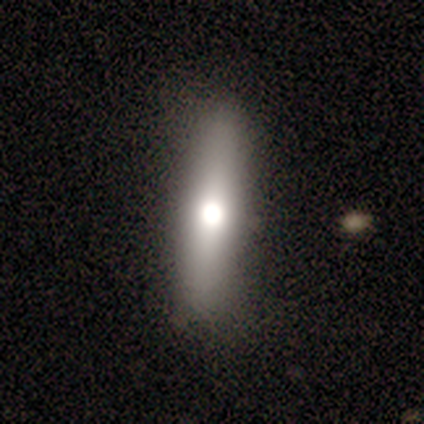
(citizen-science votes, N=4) A smooth galaxy with no disk features (50%, tied with featured or disk) that is cigar-shaped (100%).

Vote fractions:
- Smooth or featured? smooth: 50% (tied) / featured or disk: 50% (tied) / star or artifact: 0%
- How rounded? cigar-shaped: 100% / round: 0% / in between: 0%
- Merging? none: 50% (tied) / minor disturbance: 50% (tied) / major disturbance: 0% / merger: 0%